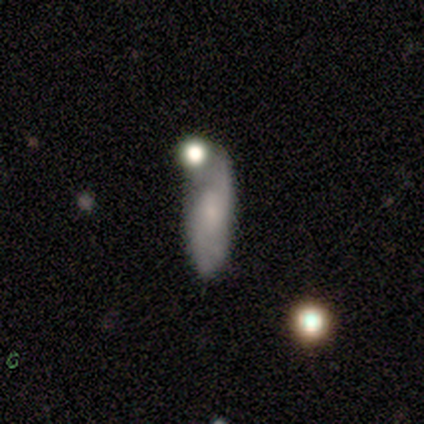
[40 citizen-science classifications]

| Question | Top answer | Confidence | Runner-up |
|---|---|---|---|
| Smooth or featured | featured or disk | 55% | smooth (30%) |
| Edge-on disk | no | 82% | yes (18%) |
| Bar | no | 61% | weak (39%) |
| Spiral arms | yes | 83% | no (17%) |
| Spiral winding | loose | 40% | medium (33%) |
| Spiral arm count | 2 | 73% | 3 (13%) |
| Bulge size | small | 56% | none (33%) |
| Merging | minor disturbance | 47% | merger (24%) |